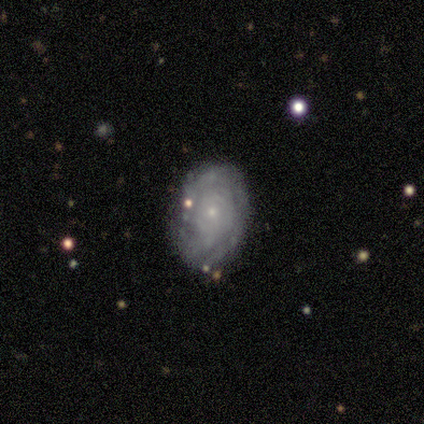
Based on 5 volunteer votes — Smooth or featured?
  - featured or disk: 100% *
  - smooth: 0%
  - star or artifact: 0%
Edge-on disk?
  - no: 100% *
  - yes: 0%
Bar?
  - no: 60% *
  - strong: 20%
  - weak: 20%
Spiral arms?
  - yes: 100% *
  - no: 0%
Spiral winding?
  - tight: 80% *
  - loose: 20%
  - medium: 0%
Spiral arm count?
  - can't tell: 80% *
  - 3: 20%
  - 1: 0%
  - 2: 0%
  - 4: 0%
  - more than 4: 0%
Bulge size?
  - small: 100% *
  - dominant: 0%
  - large: 0%
  - moderate: 0%
  - none: 0%
Merging?
  - none: 80% *
  - minor disturbance: 20%
  - major disturbance: 0%
  - merger: 0%